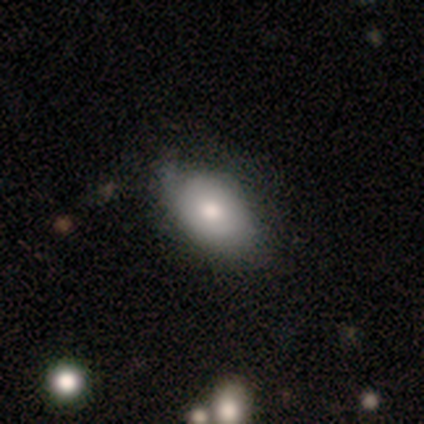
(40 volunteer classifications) Volunteers were most divided on "merging": none: 63%, minor disturbance: 26%, major disturbance: 9%, merger: 3%. More confident: how rounded — in between (92%); smooth or featured — smooth (65%).